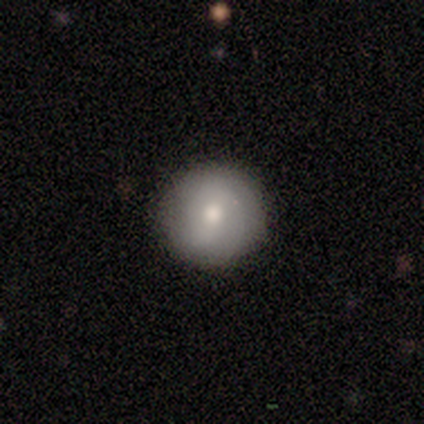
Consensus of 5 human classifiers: Overall: smooth (60%; featured or disk 40%). How rounded: round (100%). Merging: none (80%).